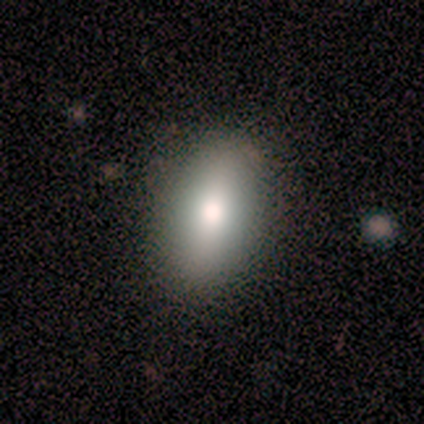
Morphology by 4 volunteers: Smooth or featured? 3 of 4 (75%) said featured or disk. Edge-on disk? 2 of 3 (67%) said yes. Edge-on bulge? 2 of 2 (100%) said rounded. Merging? 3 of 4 (75%) said none.